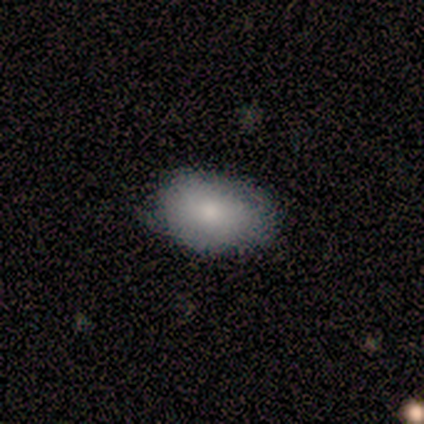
Smooth or featured? smooth (100%)
How rounded? in between (80%)
Merging? none (100%)